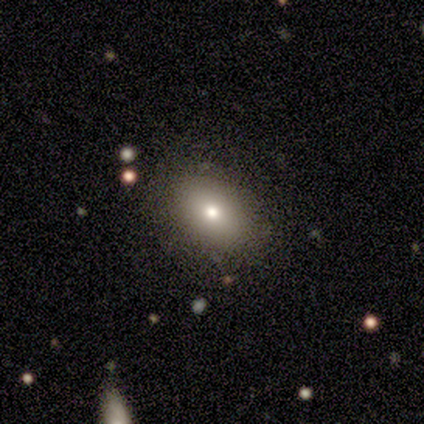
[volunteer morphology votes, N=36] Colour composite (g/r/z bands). It shows a smooth galaxy with no disk features (69%) that is in between round and cigar-shaped (76%). Merging: none (84%).